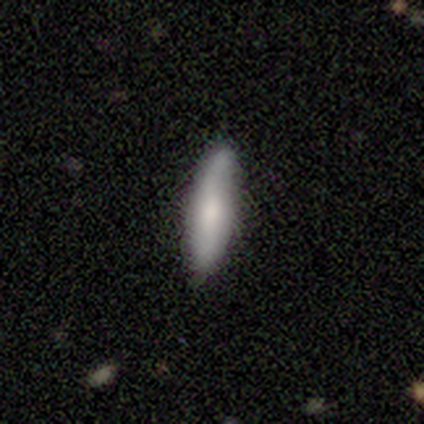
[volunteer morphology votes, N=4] type=smooth (50%, tied with featured or disk); roundness=in between (50%, tied with cigar-shaped); merging=none (100%).